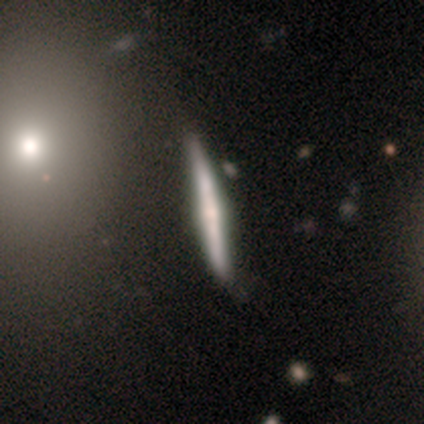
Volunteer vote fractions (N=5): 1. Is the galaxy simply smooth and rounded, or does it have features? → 60% featured or disk, 40% smooth, 0% star or artifact.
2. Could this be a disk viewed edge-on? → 100% yes, 0% no.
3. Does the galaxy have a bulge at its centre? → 67% none, 33% rounded, 0% boxy.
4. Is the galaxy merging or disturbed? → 80% none, 20% minor disturbance, 0% major disturbance, 0% merger.